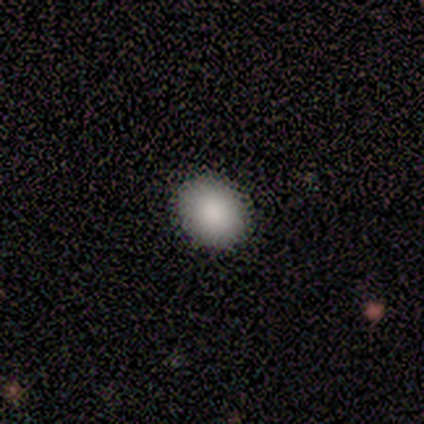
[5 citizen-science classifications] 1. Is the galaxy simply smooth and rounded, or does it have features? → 100% smooth, 0% featured or disk, 0% star or artifact.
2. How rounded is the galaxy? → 60% in between, 40% round, 0% cigar-shaped.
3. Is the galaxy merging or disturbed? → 100% none, 0% minor disturbance, 0% major disturbance, 0% merger.